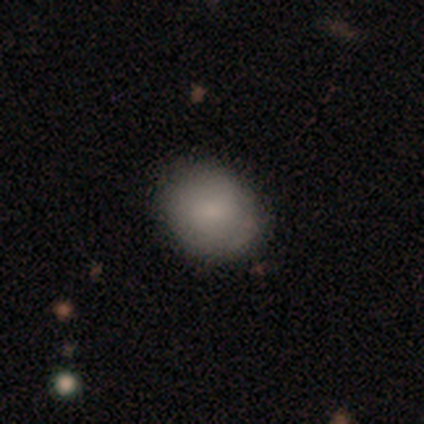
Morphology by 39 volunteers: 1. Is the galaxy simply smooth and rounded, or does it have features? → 74% smooth, 13% featured or disk, 13% star or artifact.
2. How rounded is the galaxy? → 62% round, 38% in between, 0% cigar-shaped.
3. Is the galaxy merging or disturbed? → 88% none, 6% minor disturbance, 6% major disturbance, 0% merger.